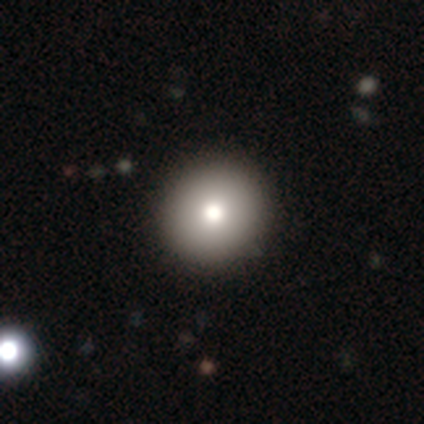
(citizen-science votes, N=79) This is clearly a smooth galaxy (82%). How rounded: clearly round (95%). Merging: possibly none (45%).